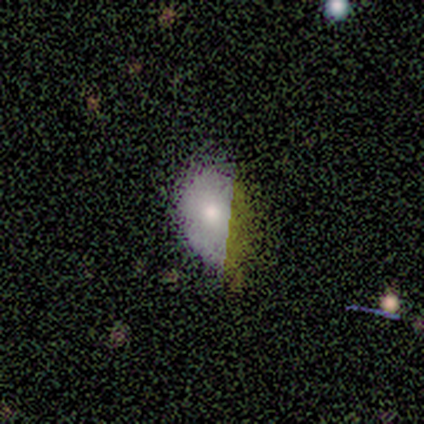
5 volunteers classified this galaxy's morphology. This appears to be a smooth galaxy with no disk features (60%) that is in between round and cigar-shaped (100%). Merging: none (80%).